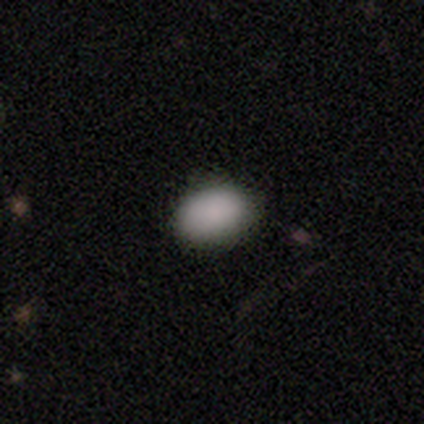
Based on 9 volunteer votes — Smooth or featured? 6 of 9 (67%) said smooth. How rounded? 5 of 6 (83%) said in between. Merging? 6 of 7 (86%) said none.